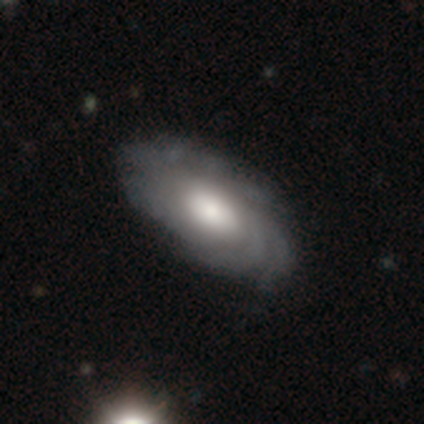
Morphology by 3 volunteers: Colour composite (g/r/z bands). It shows a featured or disk galaxy (67%) with no bar (100%), tight (50%, tied with loose) spiral arms (100%) and a large central bulge (50%, tied with moderate). Merging: none (100%).